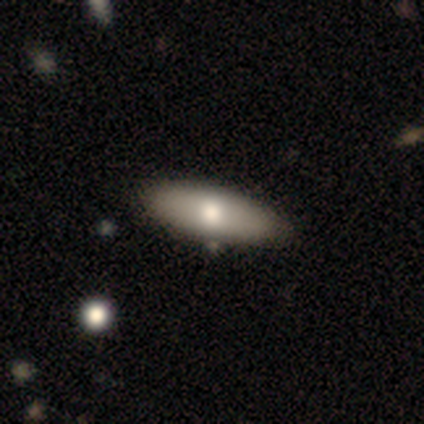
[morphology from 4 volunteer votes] smooth_or_featured: smooth (p=1.00)
how_rounded: in between (p=1.00)
merging: none (p=0.75) [alt: minor disturbance p=0.25]